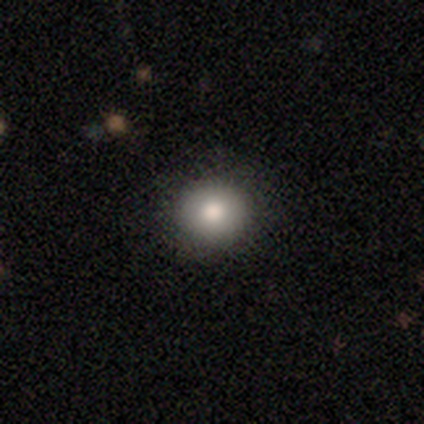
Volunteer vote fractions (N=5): Q: Smooth or featured?
A: smooth (100%)
Q: How rounded?
A: round (100%)
Q: Merging?
A: none (60%); runner-up: minor disturbance (20%)